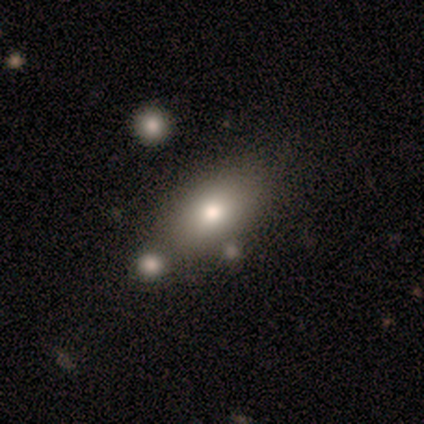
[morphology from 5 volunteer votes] Q: Smooth or featured?
A: smooth (80%); runner-up: star or artifact (20%)
Q: How rounded?
A: in between (75%); runner-up: round (25%)
Q: Merging?
A: none (75%); runner-up: major disturbance (25%)